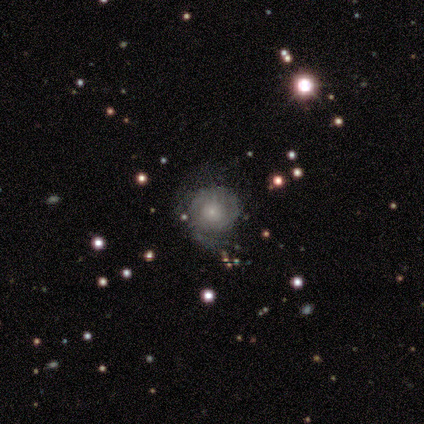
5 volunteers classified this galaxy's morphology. featured or disk 80%, smooth 20%, star or artifact 0%. Down the decision tree: edge-on disk — no (100%); bar — no (100%); spiral arms — yes (50%, tied with no); spiral arm count — can't tell (100%); spiral winding — tight (50%, tied with loose); bulge size — large (50%); merging — none (100%).